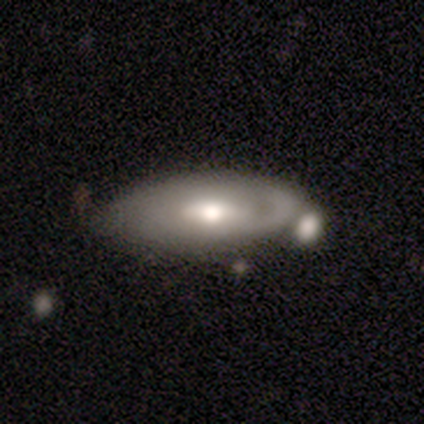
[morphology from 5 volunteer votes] Smooth or featured: smooth — 40% (tied with featured or disk — 40%)
How rounded: in between — 100%
Merging: none — 100%